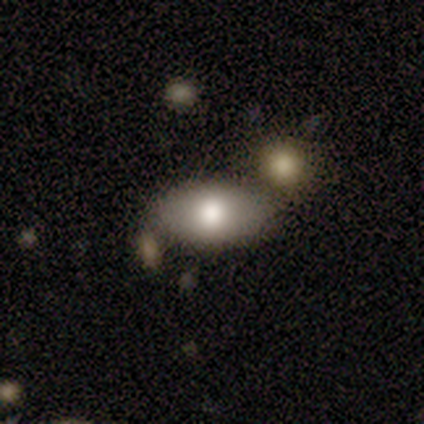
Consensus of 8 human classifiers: Smooth or featured?
  - smooth: 88% *
  - featured or disk: 12%
  - star or artifact: 0%
How rounded?
  - in between: 100% *
  - round: 0%
  - cigar-shaped: 0%
Merging?
  - none: 75% *
  - merger: 25%
  - minor disturbance: 0%
  - major disturbance: 0%